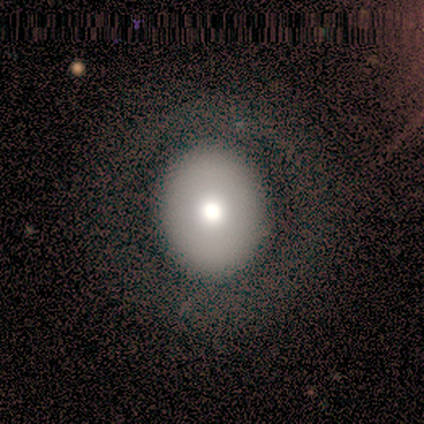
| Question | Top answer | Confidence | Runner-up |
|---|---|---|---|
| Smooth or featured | smooth | 90% | star or artifact (10%) |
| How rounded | in between | 56% | round (44%) |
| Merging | none | 89% | major disturbance (11%) |